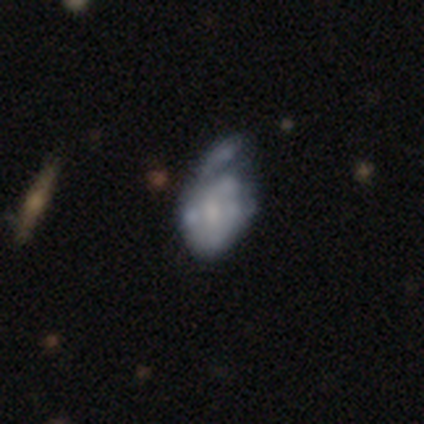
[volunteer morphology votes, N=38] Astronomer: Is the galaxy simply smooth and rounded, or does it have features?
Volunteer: featured or disk — 58% (runner-up: smooth, 42%).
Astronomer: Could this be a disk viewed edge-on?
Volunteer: no — 95%.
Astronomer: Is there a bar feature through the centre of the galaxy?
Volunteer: no — 67%.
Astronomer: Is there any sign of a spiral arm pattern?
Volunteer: no — 62% (runner-up: yes, 38%).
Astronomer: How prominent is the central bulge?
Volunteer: small — 43% (runner-up: moderate, 38%).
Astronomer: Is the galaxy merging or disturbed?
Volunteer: minor disturbance — 39% (runner-up: major disturbance, 32%).